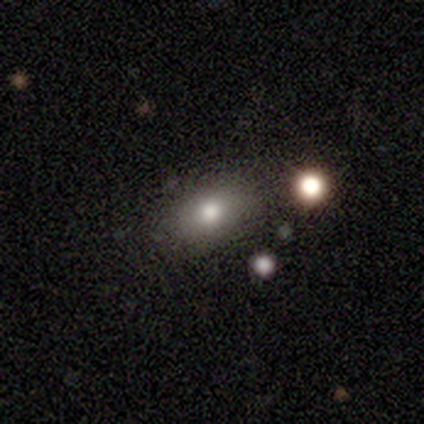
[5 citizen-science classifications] smooth 100%, featured or disk 0%, star or artifact 0%. Down the decision tree: how rounded — in between (100%); merging — none (60%).